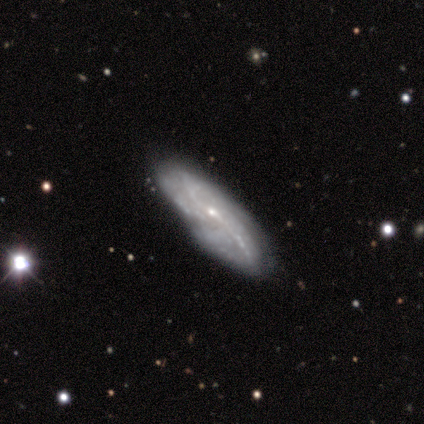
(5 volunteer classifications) Volunteers were most divided on "spiral winding" (3-way tie): tight: 33%, medium: 33%, loose: 33%; "spiral arm count" (3-way tie): 2: 33%, 4: 33%, more than 4: 33%, 1: 0%, 3: 0%, can't tell: 0%. More confident: smooth or featured — featured or disk (100%); spiral arms — yes (100%); merging — none (100%); bar — no (67%); bulge size — small (67%); edge-on disk — no (60%).